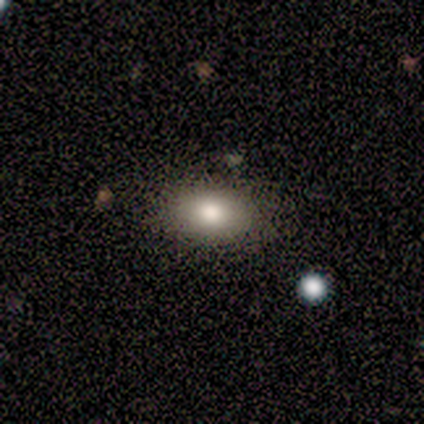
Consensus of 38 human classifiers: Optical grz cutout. It shows a smooth galaxy with no disk features (82%) that is in between round and cigar-shaped (94%). Merging: none (76%).